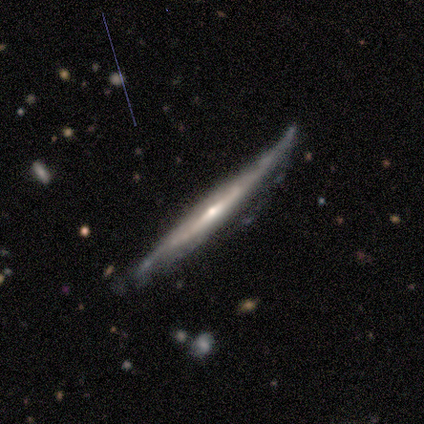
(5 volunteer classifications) Overall: featured or disk (60%; smooth 40%). Edge-on disk: yes (100%). Edge-on bulge: rounded (67%; boxy 33%). Merging: none (40%, tied with minor disturbance).